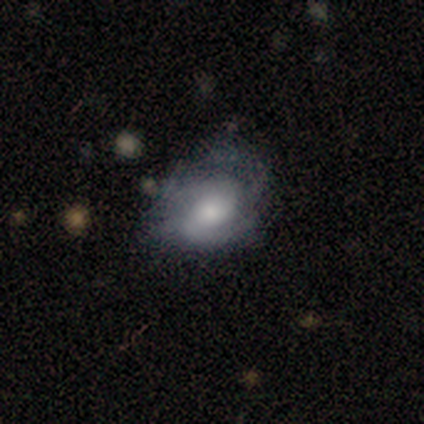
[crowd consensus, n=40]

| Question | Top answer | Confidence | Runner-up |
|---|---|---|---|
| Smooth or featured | featured or disk | 57% | smooth (35%) |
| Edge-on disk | no | 96% | yes (4%) |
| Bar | no | 55% | weak (32%) |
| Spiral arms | yes | 91% | no (9%) |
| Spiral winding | tight | 45% | medium (30%) |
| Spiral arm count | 2 | 45% | can't tell (25%) |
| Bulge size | moderate | 41% | small (32%) |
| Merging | none | 49% | minor disturbance (30%) |